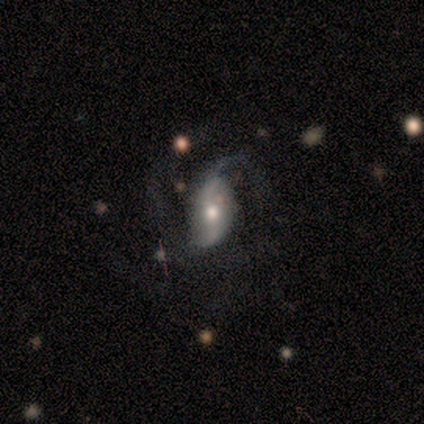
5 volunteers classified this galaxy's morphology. featured or disk 60%, smooth 20%, star or artifact 20%. Down the decision tree: edge-on disk — no (100%); bar — weak (67%); spiral arms — yes (100%); spiral arm count — 2 (67%); spiral winding — medium (67%); bulge size — moderate (100%); merging — none (75%).